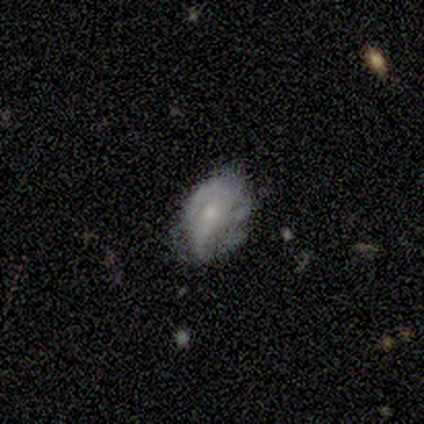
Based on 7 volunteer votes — Q: Smooth or featured?
A: featured or disk (71%); runner-up: smooth (29%)
Q: Edge-on disk?
A: no (100%)
Q: Bar?
A: no (100%)
Q: Spiral arms?
A: yes (60%); runner-up: no (40%)
Q: Spiral winding?
A: tight (67%); runner-up: loose (33%)
Q: Spiral arm count?
A: can't tell (67%); runner-up: 3 (33%)
Q: Bulge size?
A: moderate (60%); runner-up: small (40%)
Q: Merging?
A: none (86%); runner-up: major disturbance (14%)